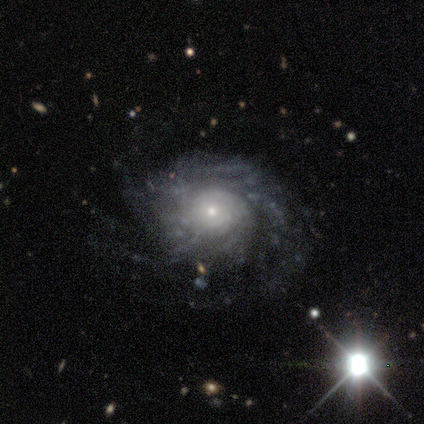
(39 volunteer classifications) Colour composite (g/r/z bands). It shows a featured or disk galaxy (97%) with no bar (76%), more than 4 (49%) tight (59%) spiral arms (97%) and a small central bulge (66%). Merging: none (79%).